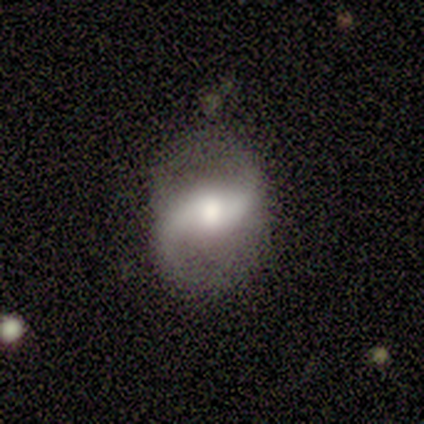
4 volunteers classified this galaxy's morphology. Smooth or featured? featured or disk (50%, tied with star or artifact)
Edge-on disk? no (100%)
Bar? no (100%)
Spiral arms? yes (100%)
Spiral winding? loose (100%)
Spiral arm count? 2 (100%)
Bulge size? large (50%, tied with moderate)
Merging? none (50%, tied with major disturbance)